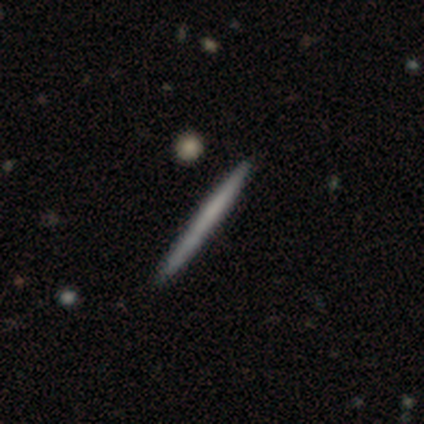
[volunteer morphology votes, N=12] This appears to be a smooth galaxy with no disk features (58%) that is cigar-shaped (100%). Merging: none (92%).